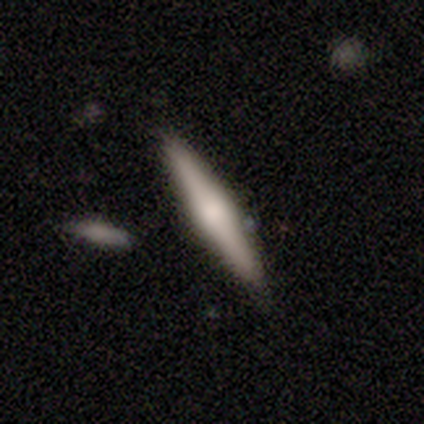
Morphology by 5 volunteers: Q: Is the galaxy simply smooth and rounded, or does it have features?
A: featured or disk — 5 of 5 (100%).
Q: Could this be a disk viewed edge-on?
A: yes — 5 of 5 (100%).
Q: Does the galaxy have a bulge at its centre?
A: rounded — 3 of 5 (60%).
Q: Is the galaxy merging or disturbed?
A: none — 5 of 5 (100%).